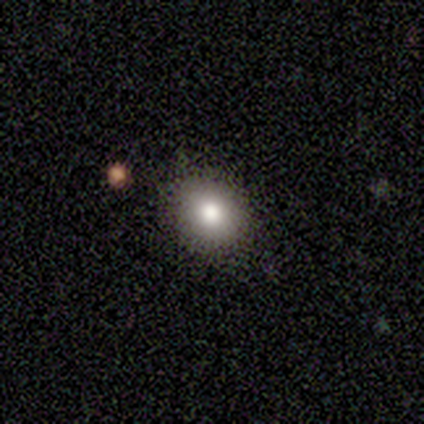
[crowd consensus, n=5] A smooth galaxy with no disk features (80%) that is round (75%). Merging: none (60%).